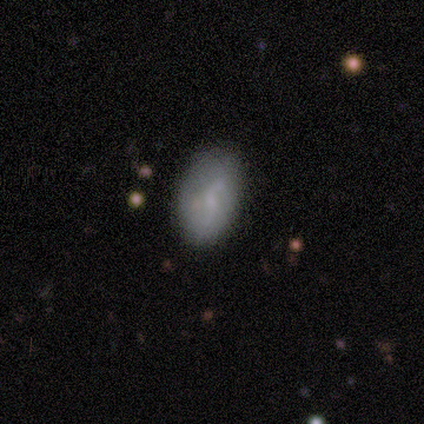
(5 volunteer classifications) Morphology: type=smooth (80%); roundness=in between (100%); merging=none (50%, tied with minor disturbance).